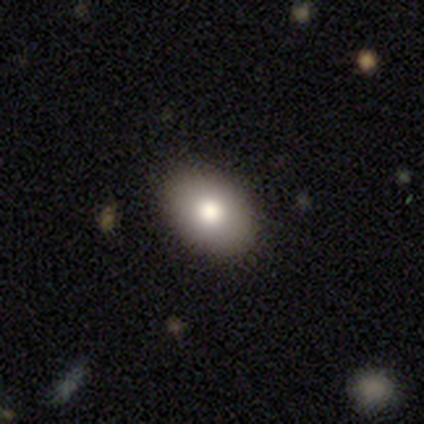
Morphology: type=smooth (80%); roundness=in between (100%); merging=none (100%).